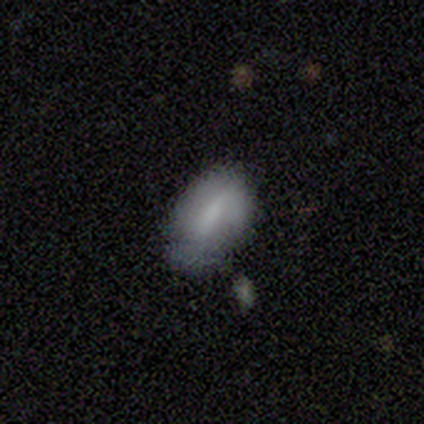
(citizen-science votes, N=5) Q: Smooth or featured?
A: smooth (80%); runner-up: featured or disk (20%)
Q: How rounded?
A: in between (100%)
Q: Merging?
A: none (60%); runner-up: minor disturbance (20%)